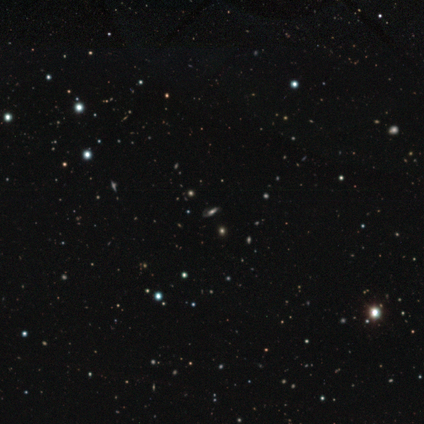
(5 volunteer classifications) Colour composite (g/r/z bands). It shows a star or artifact, not a galaxy (80%).